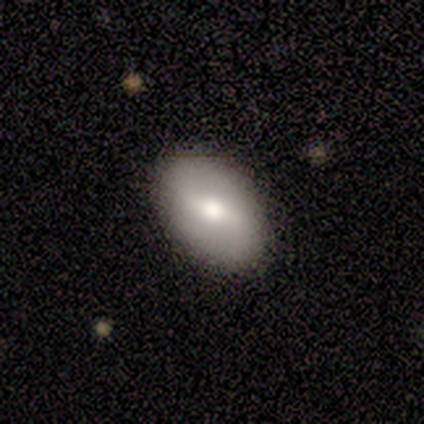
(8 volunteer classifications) featured or disk 62%, smooth 38%, star or artifact 0%. Down the decision tree: edge-on disk — no (100%); bar — weak (100%); spiral arms — no (60%); bulge size — large (40%, tied with small); merging — none (100%).